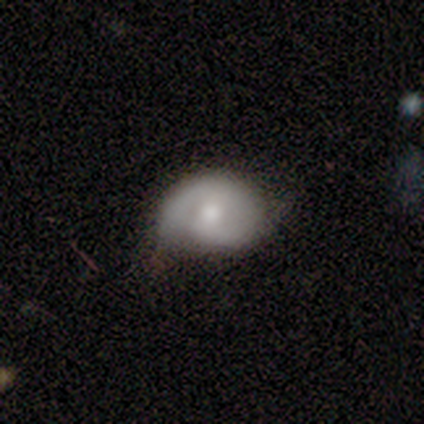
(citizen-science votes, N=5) Smooth or featured?
  - featured or disk: 80% *
  - smooth: 20%
  - star or artifact: 0%
Edge-on disk?
  - no: 100% *
  - yes: 0%
Bar?
  - weak: 50% * (tied)
  - no: 50% * (tied)
  - strong: 0%
Spiral arms?
  - yes: 100% *
  - no: 0%
Spiral winding?
  - tight: 75% *
  - medium: 25%
  - loose: 0%
Spiral arm count?
  - 2: 75% *
  - 1: 25%
  - 3: 0%
  - 4: 0%
  - more than 4: 0%
  - can't tell: 0%
Bulge size?
  - moderate: 100% *
  - dominant: 0%
  - large: 0%
  - small: 0%
  - none: 0%
Merging?
  - none: 40% * (tied)
  - minor disturbance: 40% * (tied)
  - major disturbance: 20%
  - merger: 0%